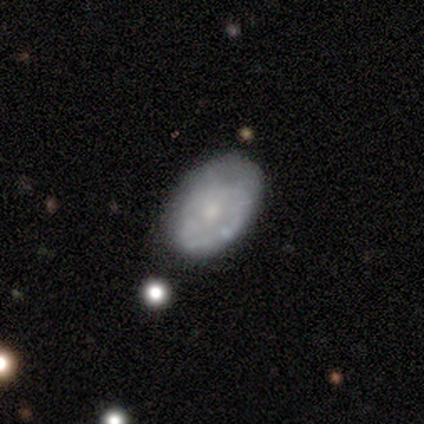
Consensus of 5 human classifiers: Smooth or featured?
  - featured or disk: 80% *
  - smooth: 20%
  - star or artifact: 0%
Edge-on disk?
  - no: 100% *
  - yes: 0%
Bar?
  - no: 75% *
  - weak: 25%
  - strong: 0%
Spiral arms?
  - yes: 50% * (tied)
  - no: 50% * (tied)
Spiral winding?
  - tight: 100% *
  - medium: 0%
  - loose: 0%
Spiral arm count?
  - 2: 50% * (tied)
  - can't tell: 50% * (tied)
  - 1: 0%
  - 3: 0%
  - 4: 0%
  - more than 4: 0%
Bulge size?
  - moderate: 50% * (tied)
  - small: 50% * (tied)
  - dominant: 0%
  - large: 0%
  - none: 0%
Merging?
  - none: 60% *
  - minor disturbance: 20%
  - major disturbance: 20%
  - merger: 0%